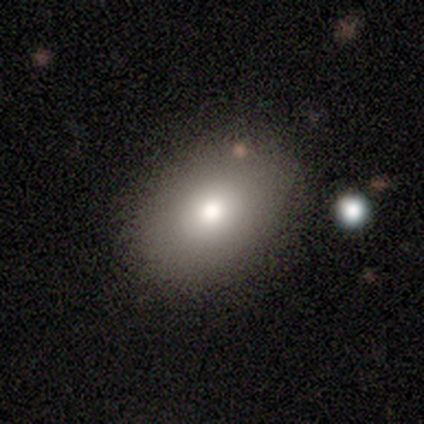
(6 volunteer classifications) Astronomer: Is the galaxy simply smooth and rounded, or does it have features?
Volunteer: smooth — 100%.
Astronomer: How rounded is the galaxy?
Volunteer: in between — 83%.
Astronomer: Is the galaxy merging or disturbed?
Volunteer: none — 100%.